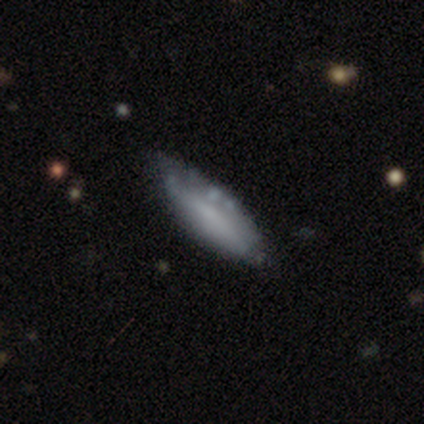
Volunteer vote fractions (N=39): This appears to be a smooth galaxy with no disk features (67%) that is cigar-shaped (58%). Merging: none (61%).